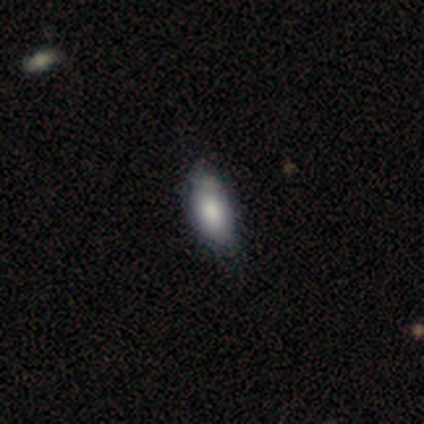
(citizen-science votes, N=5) This appears to be a smooth galaxy with no disk features (60%) that is in between round and cigar-shaped (100%). Merging: none (80%).